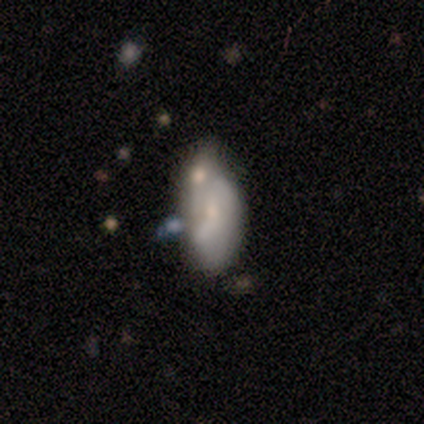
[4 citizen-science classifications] This appears to be a smooth galaxy with no disk features (75%) that is in between round and cigar-shaped (100%). Merging: minor disturbance (100%).